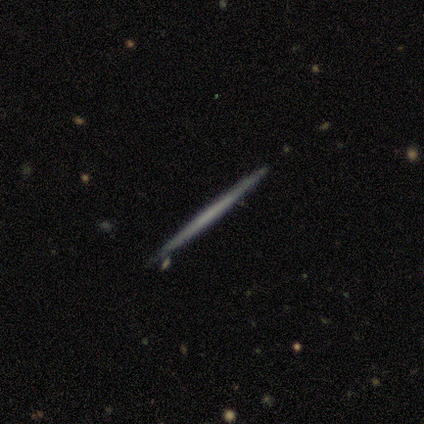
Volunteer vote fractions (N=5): Q: Smooth or featured?
A: featured or disk (60%); runner-up: smooth (40%)
Q: Edge-on disk?
A: yes (100%)
Q: Edge-on bulge?
A: none (100%)
Q: Merging?
A: none (80%); runner-up: minor disturbance (20%)